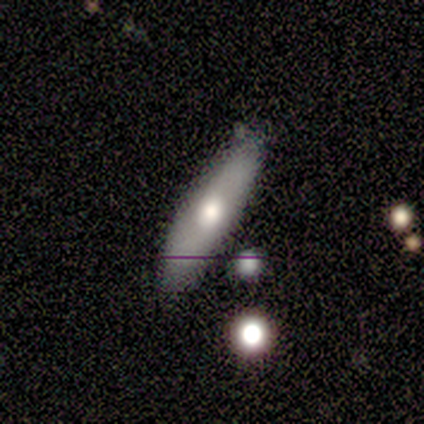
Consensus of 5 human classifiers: Overall: featured or disk (60%; smooth 40%). Edge-on disk: no (100%). Bar: no (100%). Spiral arms: no (100%). Bulge size: large (33%, tied with moderate and small). Merging: none (60%; minor disturbance 40%).